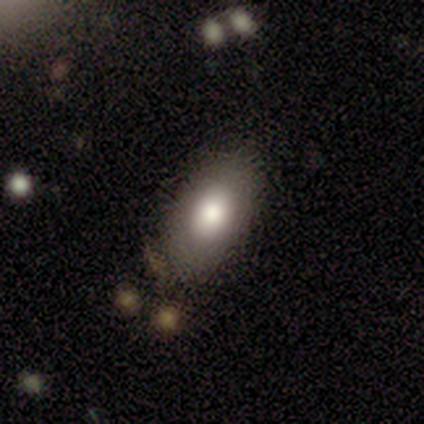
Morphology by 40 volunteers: smooth-or-featured: smooth: 82% | featured or disk: 10% | star or artifact: 8%
  how-rounded: in between: 94% | round: 3% | cigar-shaped: 3%
  merging: none: 89% | minor disturbance: 8% | major disturbance: 3% | merger: 0%